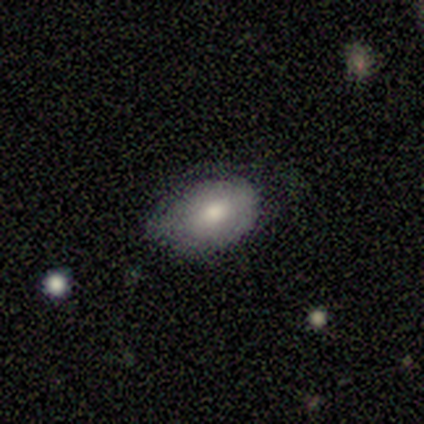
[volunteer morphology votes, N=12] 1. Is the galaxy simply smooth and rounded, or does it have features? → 67% smooth, 33% featured or disk, 0% star or artifact.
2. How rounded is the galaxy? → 100% in between, 0% round, 0% cigar-shaped.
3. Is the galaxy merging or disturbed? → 75% none, 25% minor disturbance, 0% major disturbance, 0% merger.